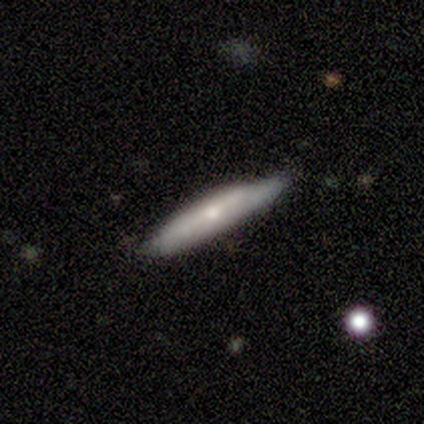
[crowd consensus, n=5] A smooth galaxy with no disk features (60%) that is cigar-shaped (67%).

Vote fractions:
- Smooth or featured? smooth: 60% / featured or disk: 40% / star or artifact: 0%
- How rounded? cigar-shaped: 67% / in between: 33% / round: 0%
- Merging? none: 60% / minor disturbance: 40% / major disturbance: 0% / merger: 0%